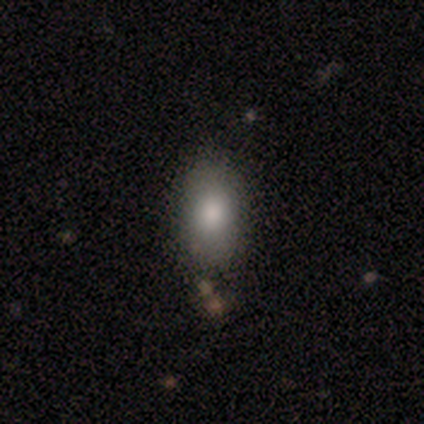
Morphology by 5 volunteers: Volunteers were most divided on "merging" (2-way tie): none: 50%, minor disturbance: 50%, major disturbance: 0%, merger: 0%. More confident: how rounded — in between (100%); smooth or featured — smooth (80%).